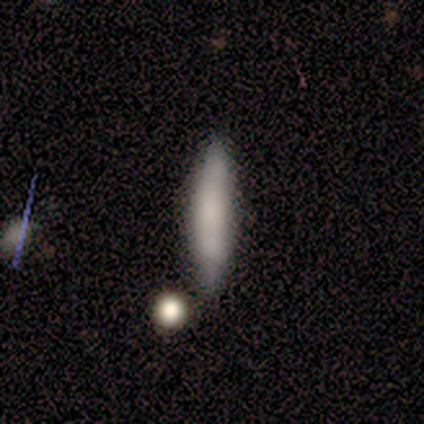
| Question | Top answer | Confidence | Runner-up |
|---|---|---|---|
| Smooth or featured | smooth | 67% | star or artifact (25%) |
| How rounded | cigar-shaped | 75% | in between (25%) |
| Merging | none | 56% | minor disturbance (33%) |